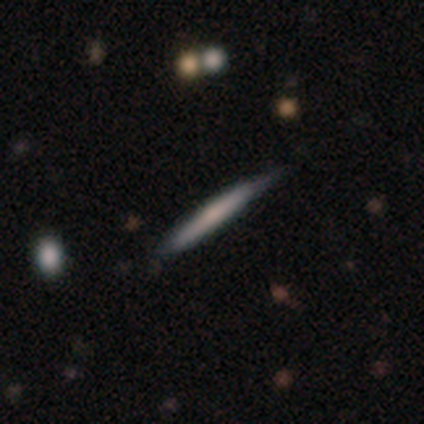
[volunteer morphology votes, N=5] Volunteers were most divided on "edge-on bulge": none: 67%, rounded: 33%, boxy: 0%. More confident: edge-on disk — yes (100%); merging — none (75%); smooth or featured — featured or disk (60%).